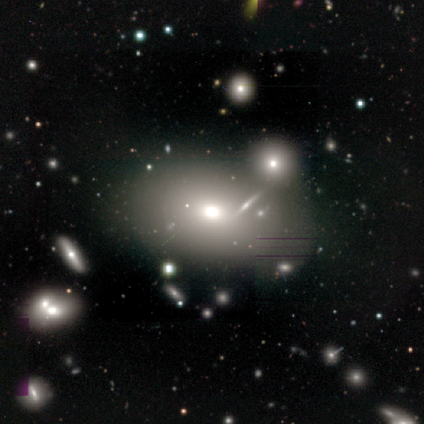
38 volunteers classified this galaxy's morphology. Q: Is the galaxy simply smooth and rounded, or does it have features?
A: smooth — 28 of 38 (74%).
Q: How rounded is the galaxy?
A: in between — 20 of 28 (71%).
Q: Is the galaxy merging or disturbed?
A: none — 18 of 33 (55%).